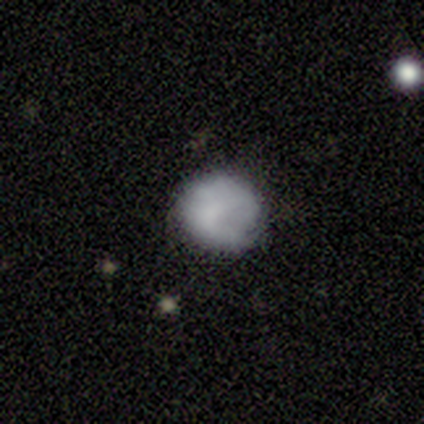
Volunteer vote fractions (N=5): This appears to be a smooth galaxy with no disk features (60%) that is round (100%). Merging: none (80%).